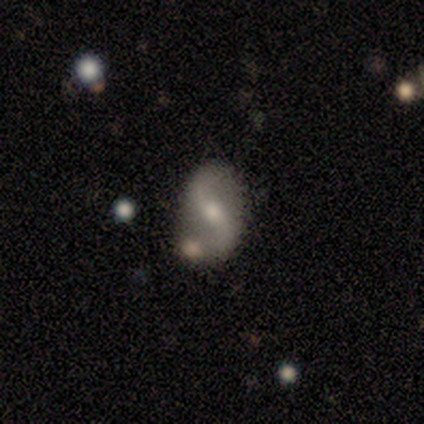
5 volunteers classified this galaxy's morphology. Q: Smooth or featured?
A: featured or disk (80%); runner-up: smooth (20%)
Q: Edge-on disk?
A: no (100%)
Q: Bar?
A: no (75%); runner-up: strong (25%)
Q: Spiral arms?
A: yes (75%); runner-up: no (25%)
Q: Spiral winding?
A: loose (67%); runner-up: medium (33%)
Q: Spiral arm count?
A: 2 (100%)
Q: Bulge size?
A: small (75%); runner-up: moderate (25%)
Q: Merging?
A: none (40%); tied with: merger (40%)